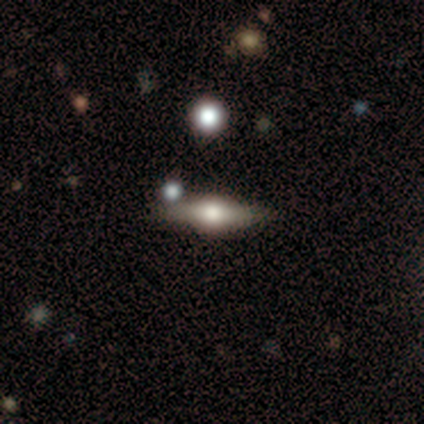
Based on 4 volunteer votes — This is possibly a smooth galaxy (50%). How rounded: possibly in between (50%, tied with cigar-shaped). Merging: clearly none (100%).